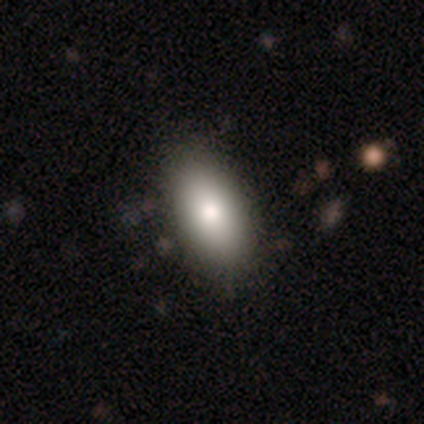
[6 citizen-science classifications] Smooth or featured? 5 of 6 (83%) said smooth. How rounded? 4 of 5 (80%) said in between. Merging? 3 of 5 (60%) said none.